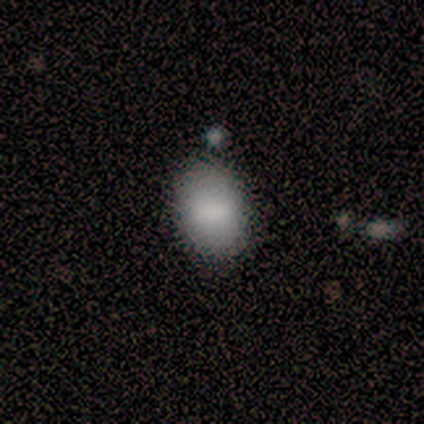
Smooth or featured? smooth (80%)
How rounded? in between (100%)
Merging? none (75%)